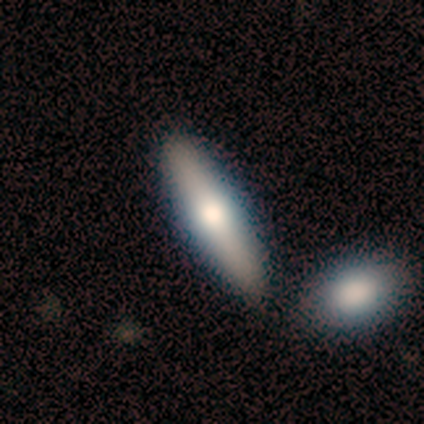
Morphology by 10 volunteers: A featured or disk galaxy (50%) viewed edge-on (100%) with a rounded central bulge (100%). Merging: none (78%).